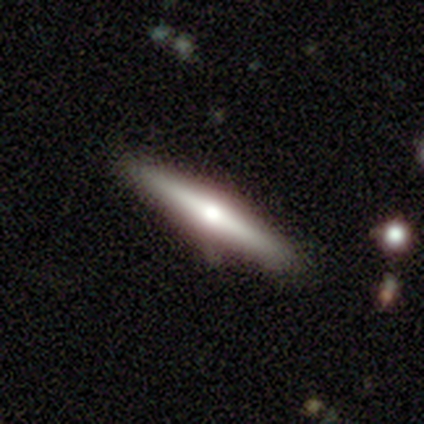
smooth_or_featured: featured or disk (p=0.80) [alt: star or artifact p=0.20]
disk_edge_on: yes (p=1.00)
edge_on_bulge: rounded (p=1.00)
merging: none (p=0.75) [alt: minor disturbance p=0.25]